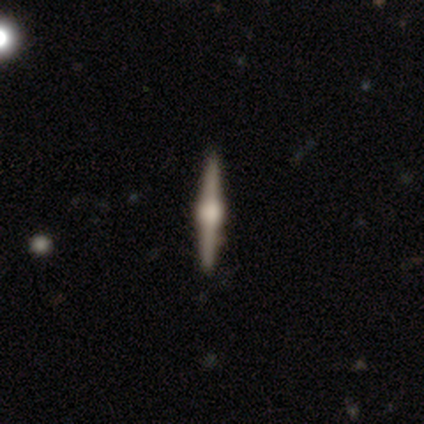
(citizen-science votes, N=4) featured or disk 100%, smooth 0%, star or artifact 0%. Down the decision tree: edge-on disk — yes (100%); edge-on bulge — rounded (75%); merging — none (100%).